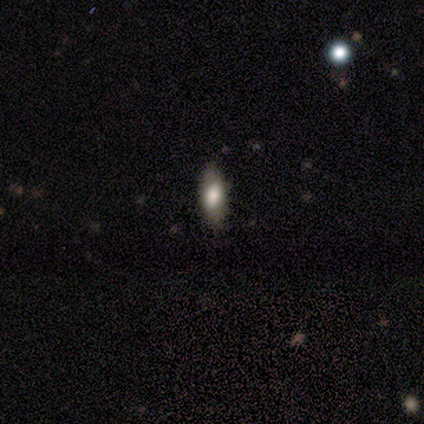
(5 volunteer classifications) Smooth or featured?
  - smooth: 80% *
  - star or artifact: 20%
  - featured or disk: 0%
How rounded?
  - in between: 75% *
  - cigar-shaped: 25%
  - round: 0%
Merging?
  - none: 100% *
  - minor disturbance: 0%
  - major disturbance: 0%
  - merger: 0%